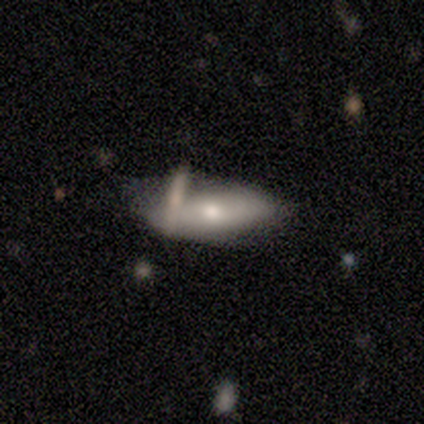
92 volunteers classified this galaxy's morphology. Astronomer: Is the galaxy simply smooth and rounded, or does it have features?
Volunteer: featured or disk — 49% (runner-up: smooth, 48%).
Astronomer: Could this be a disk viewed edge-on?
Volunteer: no — 76%.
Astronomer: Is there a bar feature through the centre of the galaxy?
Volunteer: no — 76%.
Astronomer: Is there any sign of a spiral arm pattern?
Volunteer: no — 85%.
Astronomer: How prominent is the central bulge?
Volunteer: moderate — 62%.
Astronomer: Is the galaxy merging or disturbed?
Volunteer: none — 43% (runner-up: minor disturbance, 24%).